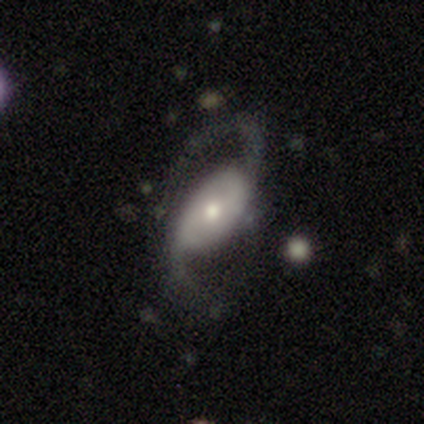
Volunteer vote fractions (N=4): Overall: featured or disk (100%). Edge-on disk: no (75%). Bar: weak (67%; no 33%). Spiral arms: yes (67%; no 33%). Spiral arm count: 2 (100%). Spiral winding: medium (50%, tied with loose). Bulge size: small (67%; moderate 33%). Merging: none (50%, tied with major disturbance).